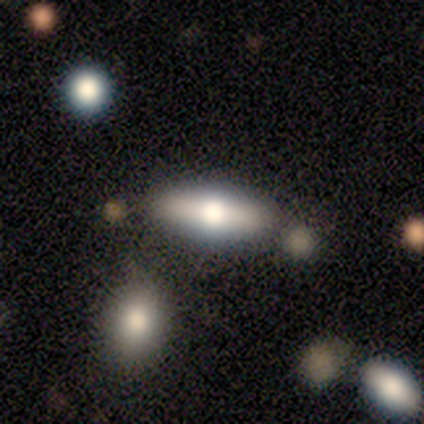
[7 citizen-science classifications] smooth_or_featured: smooth (p=0.43) [tied with: featured or disk p=0.43]
how_rounded: in between (p=0.67) [alt: cigar-shaped p=0.33]
merging: none (p=1.00)